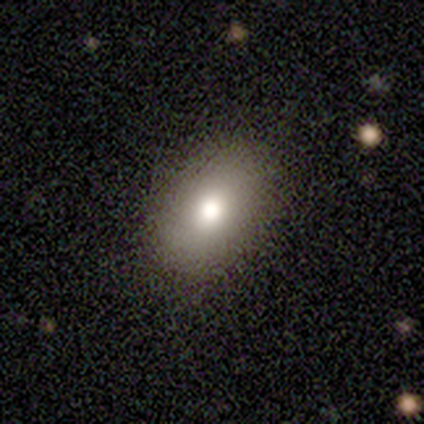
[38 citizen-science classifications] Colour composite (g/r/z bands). It shows a smooth galaxy with no disk features (84%) that is in between round and cigar-shaped (78%). Merging: none (89%).